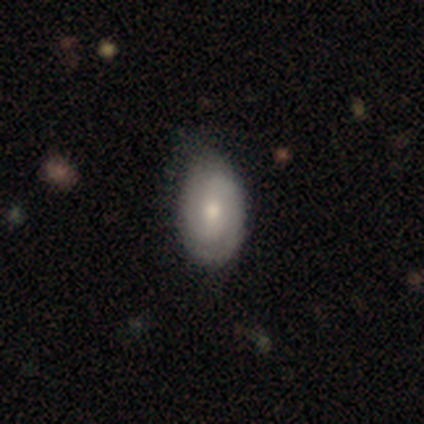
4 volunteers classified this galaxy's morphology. Smooth or featured? 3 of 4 (75%) said featured or disk. Edge-on disk? 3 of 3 (100%) said no. Bar? 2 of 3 (67%) said no. Spiral arms? 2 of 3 (67%) said yes. Spiral winding? 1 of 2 (50%, tied with medium) said tight. Spiral arm count? 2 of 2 (100%) said 2. Bulge size? 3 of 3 (100%) said moderate. Merging? 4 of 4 (100%) said none.